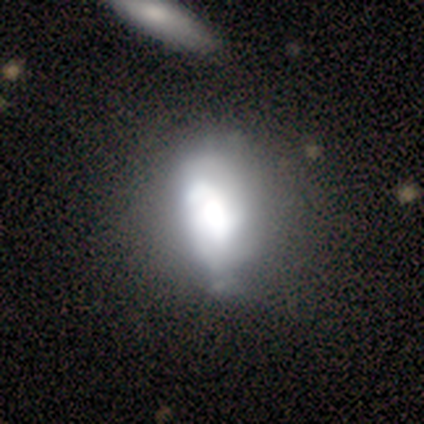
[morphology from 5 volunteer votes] smooth_or_featured: smooth (p=0.60) [alt: star or artifact p=0.40]
how_rounded: in between (p=1.00)
merging: none (p=0.33) [tied with: minor disturbance p=0.33, major disturbance p=0.33]